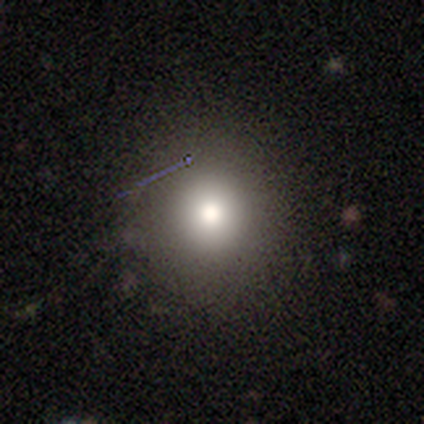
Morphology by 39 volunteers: Q: Smooth or featured?
A: smooth (79%); runner-up: featured or disk (10%)
Q: How rounded?
A: round (100%)
Q: Merging?
A: none (83%); runner-up: minor disturbance (9%)